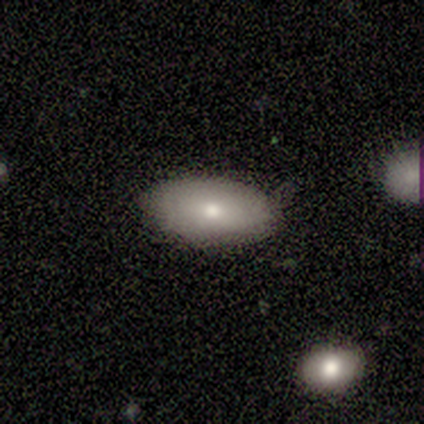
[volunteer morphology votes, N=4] smooth 50% (tied), featured or disk 50% (tied), star or artifact 0%. Down the decision tree: how rounded — round (50%, tied with in between); merging — none (75%).